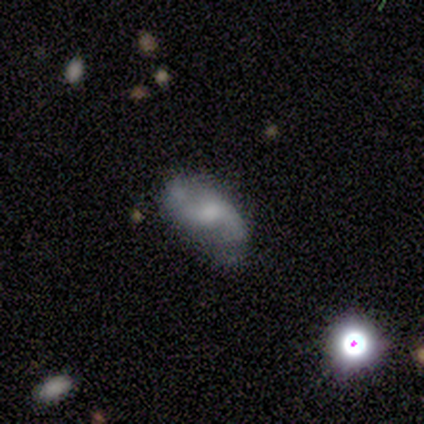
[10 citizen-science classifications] Smooth or featured?
  - featured or disk: 70% *
  - smooth: 20%
  - star or artifact: 10%
Edge-on disk?
  - no: 100% *
  - yes: 0%
Bar?
  - no: 71% *
  - strong: 14%
  - weak: 14%
Spiral arms?
  - yes: 86% *
  - no: 14%
Spiral winding?
  - medium: 50% * (tied)
  - loose: 50% * (tied)
  - tight: 0%
Spiral arm count?
  - 2: 100% *
  - 1: 0%
  - 3: 0%
  - 4: 0%
  - more than 4: 0%
  - can't tell: 0%
Bulge size?
  - moderate: 43% * (tied)
  - none: 43% * (tied)
  - large: 14%
  - dominant: 0%
  - small: 0%
Merging?
  - none: 56% *
  - minor disturbance: 33%
  - major disturbance: 11%
  - merger: 0%